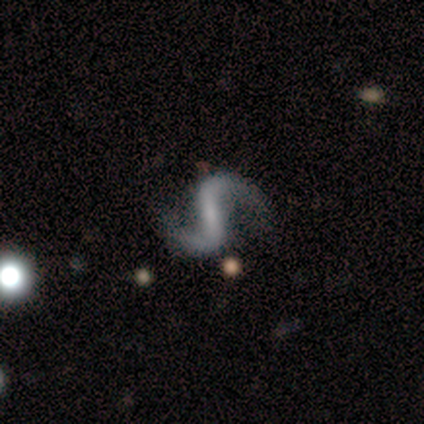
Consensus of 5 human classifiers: smooth_or_featured: featured or disk (p=1.00)
disk_edge_on: no (p=1.00)
bar: strong (p=0.60) [alt: weak p=0.20]
has_spiral_arms: yes (p=0.80) [alt: no p=0.20]
spiral_winding: loose (p=1.00)
spiral_arm_count: 2 (p=1.00)
bulge_size: none (p=0.60) [alt: small p=0.40]
merging: none (p=1.00)